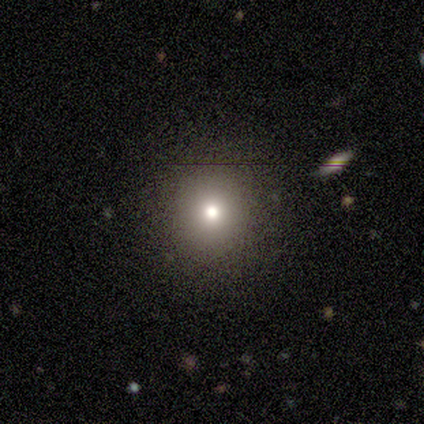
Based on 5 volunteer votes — Morphology: type=smooth (80%); roundness=round (75%); merging=none (75%).